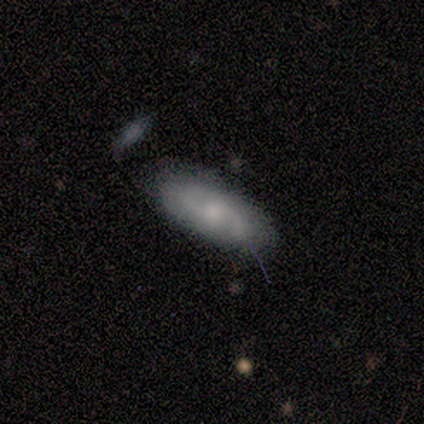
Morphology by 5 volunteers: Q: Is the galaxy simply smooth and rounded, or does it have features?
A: featured or disk — 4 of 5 (80%).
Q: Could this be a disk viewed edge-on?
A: yes — 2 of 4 (50%, tied with no).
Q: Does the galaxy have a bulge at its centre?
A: rounded — 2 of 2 (100%).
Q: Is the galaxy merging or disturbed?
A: none — 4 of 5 (80%).